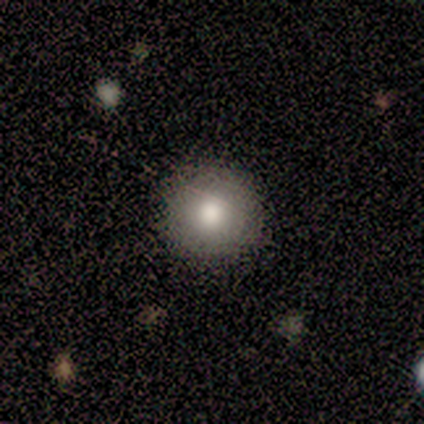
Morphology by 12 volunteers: Q: Smooth or featured?
A: smooth (75%); runner-up: featured or disk (17%)
Q: How rounded?
A: round (100%)
Q: Merging?
A: none (91%); runner-up: minor disturbance (9%)